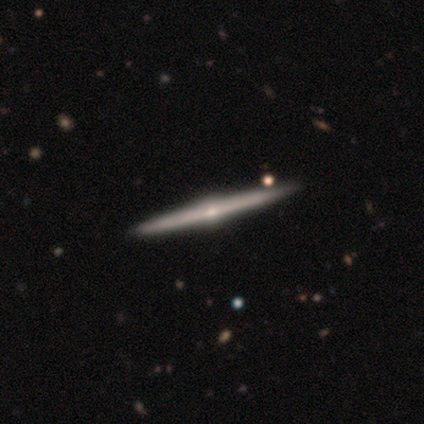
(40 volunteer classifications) Smooth or featured: featured or disk — 100%
Edge-on disk: yes — 100%
Edge-on bulge: rounded — 98% (none — 2%)
Merging: none — 62% (merger — 5%)